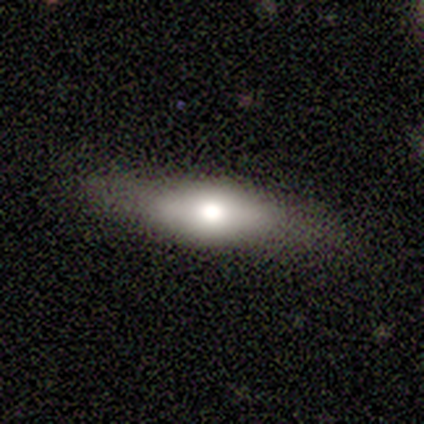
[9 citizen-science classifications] Smooth or featured: smooth — 67% (featured or disk — 33%)
How rounded: cigar-shaped — 67% (in between — 33%)
Merging: none — 78% (minor disturbance — 11%)